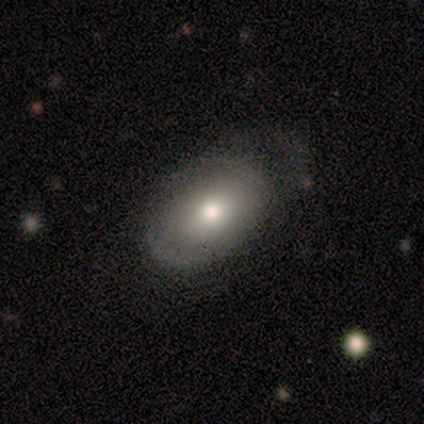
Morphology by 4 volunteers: Overall: featured or disk (75%). Edge-on disk: no (100%). Bar: no (67%; strong 33%). Spiral arms: no (67%; yes 33%). Bulge size: moderate (67%; large 33%). Merging: none (50%; minor disturbance 25%).